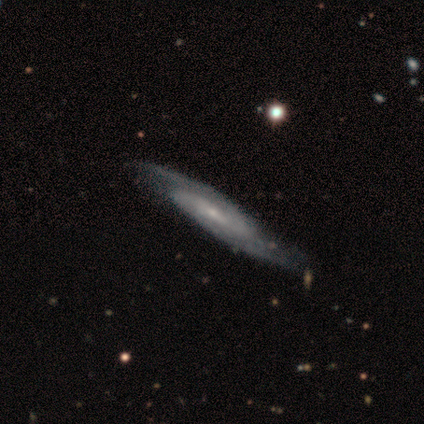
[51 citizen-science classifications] A featured or disk galaxy (84%) with a weak bar (47%), 2 (89%) medium (51%) spiral arms (97%) and a small central bulge (72%).

Vote fractions:
- Smooth or featured? featured or disk: 84% / smooth: 10% / star or artifact: 6%
- Edge-on disk? no: 84% / yes: 16%
- Bar? weak: 47% / no: 33% / strong: 19%
- Spiral arms? yes: 97% / no: 3%
- Spiral winding? medium: 51% / tight: 29% / loose: 20%
- Spiral arm count? 2: 89% / can't tell: 6% / 1: 3% / 3: 3% / 4: 0% / more than 4: 0%
- Bulge size? small: 72% / moderate: 22% / large: 3% / none: 3% / dominant: 0%
- Merging? none: 69% / minor disturbance: 21% / major disturbance: 8% / merger: 2%